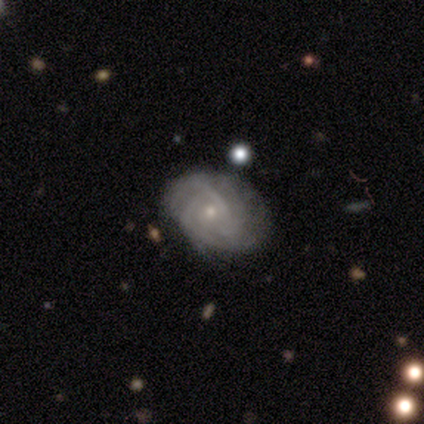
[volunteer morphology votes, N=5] Smooth or featured: featured or disk — 100%
Edge-on disk: no — 100%
Bar: no — 80% (strong — 20%)
Spiral arms: yes — 80% (no — 20%)
Spiral winding: tight — 100%
Spiral arm count: can't tell — 50% (2 — 25%)
Bulge size: small — 80% (moderate — 20%)
Merging: none — 60% (minor disturbance — 20%)